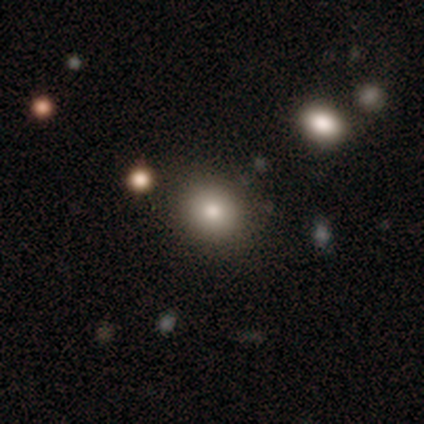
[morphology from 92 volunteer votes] type=smooth (79%); roundness=round (77%); merging=none (85%).